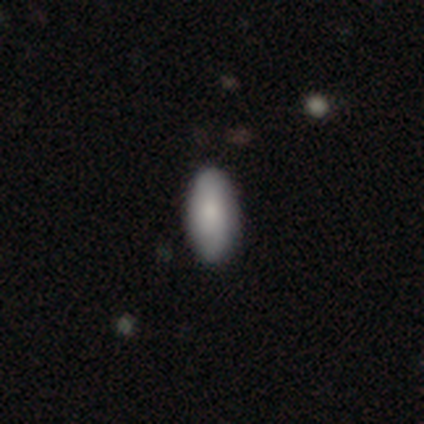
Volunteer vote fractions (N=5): smooth_or_featured: smooth (p=0.60) [alt: featured or disk p=0.40]
how_rounded: in between (p=0.67) [alt: cigar-shaped p=0.33]
merging: none (p=1.00)